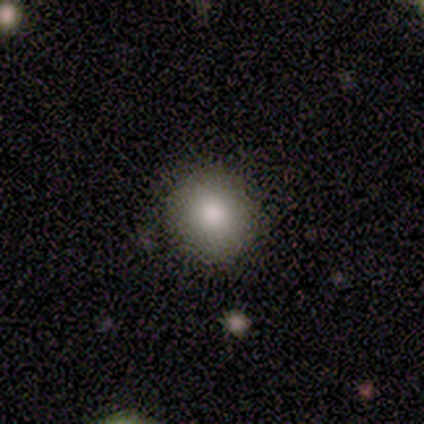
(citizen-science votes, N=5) Smooth or featured? smooth (60%)
How rounded? round (100%)
Merging? none (67%)